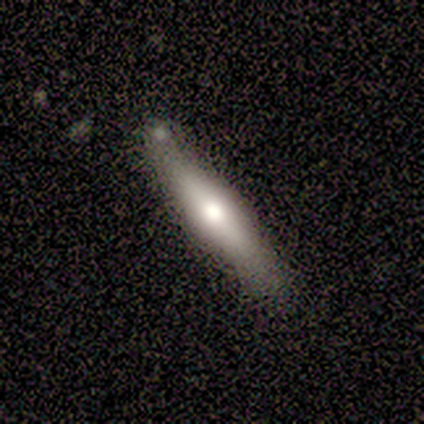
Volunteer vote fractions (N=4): A smooth galaxy with no disk features (75%) that is cigar-shaped (100%).

Vote fractions:
- Smooth or featured? smooth: 75% / featured or disk: 25% / star or artifact: 0%
- How rounded? cigar-shaped: 100% / round: 0% / in between: 0%
- Merging? none: 100% / minor disturbance: 0% / major disturbance: 0% / merger: 0%